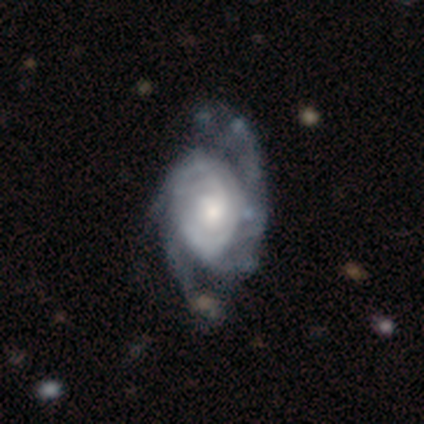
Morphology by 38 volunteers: Smooth or featured?
  - featured or disk: 95% *
  - smooth: 3%
  - star or artifact: 3%
Edge-on disk?
  - no: 100% *
  - yes: 0%
Bar?
  - no: 83% *
  - weak: 11%
  - strong: 6%
Spiral arms?
  - yes: 97% *
  - no: 3%
Spiral winding?
  - tight: 57% *
  - medium: 31%
  - loose: 11%
Spiral arm count?
  - 3: 37% *
  - 2: 31%
  - can't tell: 29%
  - 4: 3%
  - 1: 0%
  - more than 4: 0%
Bulge size?
  - moderate: 47% *
  - large: 25%
  - small: 19%
  - none: 6%
  - dominant: 3%
Merging?
  - none: 30% *
  - minor disturbance: 14%
  - major disturbance: 14%
  - merger: 0%